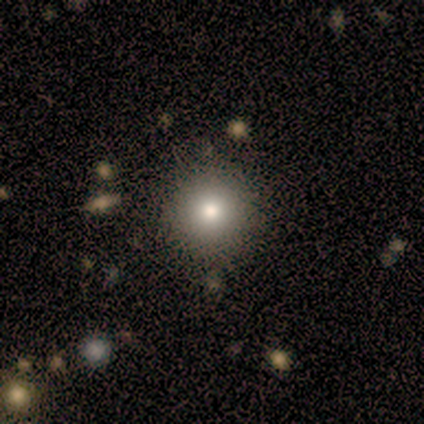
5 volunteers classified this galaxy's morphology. This is clearly a smooth galaxy (100%). How rounded: clearly round (100%). Merging: clearly none (80%).